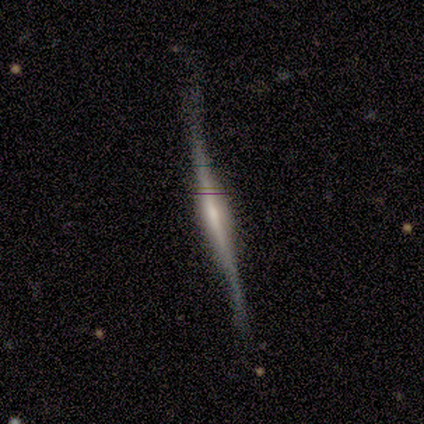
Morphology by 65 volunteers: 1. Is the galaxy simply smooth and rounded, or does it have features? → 85% featured or disk, 8% smooth, 8% star or artifact.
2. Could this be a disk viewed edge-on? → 96% yes, 4% no.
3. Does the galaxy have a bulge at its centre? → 60% rounded, 26% boxy, 13% none.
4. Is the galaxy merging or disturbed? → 57% none, 37% minor disturbance, 3% major disturbance, 3% merger.